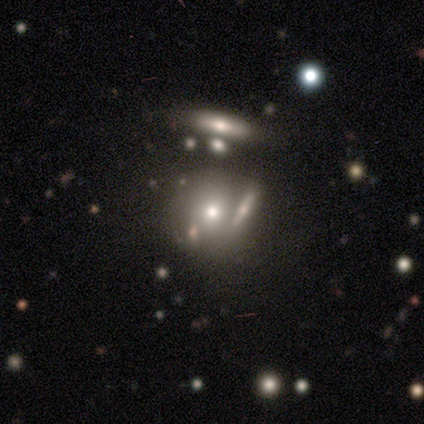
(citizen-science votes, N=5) Smooth or featured: featured or disk — 60% (smooth — 40%)
Edge-on disk: no — 67% (yes — 33%)
Bar: no — 100%
Spiral arms: no — 100%
Bulge size: large — 50% (tied with moderate — 50%)
Merging: none — 100%